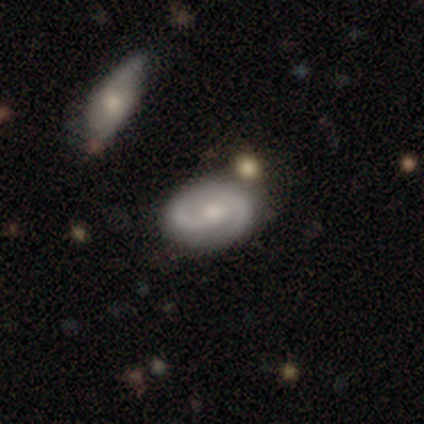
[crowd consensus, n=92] Smooth or featured? 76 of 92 (83%) said featured or disk. Edge-on disk? 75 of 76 (99%) said no. Bar? 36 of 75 (48%) said no. Spiral arms? 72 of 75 (96%) said yes. Spiral winding? 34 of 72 (47%) said medium. Spiral arm count? 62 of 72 (86%) said 2. Bulge size? 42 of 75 (56%) said small. Merging? 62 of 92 (67%) said none.